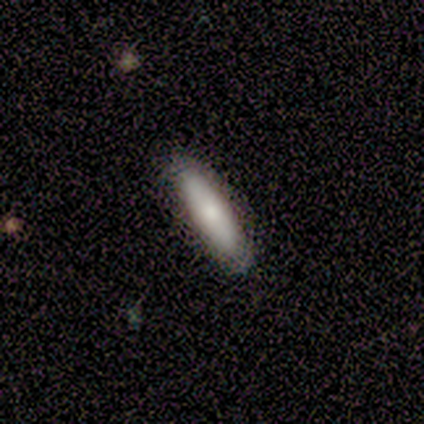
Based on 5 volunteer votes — Overall: smooth (100%). How rounded: cigar-shaped (80%). Merging: none (100%).